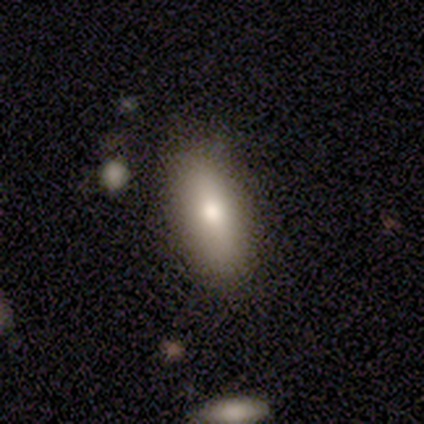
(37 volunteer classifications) Q: Smooth or featured?
A: smooth (65%); runner-up: featured or disk (22%)
Q: How rounded?
A: in between (62%); runner-up: cigar-shaped (38%)
Q: Merging?
A: none (81%); runner-up: minor disturbance (12%)